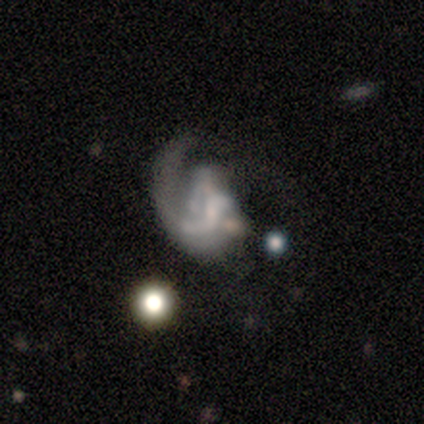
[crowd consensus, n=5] Morphology: type=featured or disk (100%); edge-on=no (100%); bar=no (80%); spiral arms=yes (80%); winding=medium (50%, tied with loose); arm count=1 (75%); bulge=large (40%); merging=major disturbance (100%).